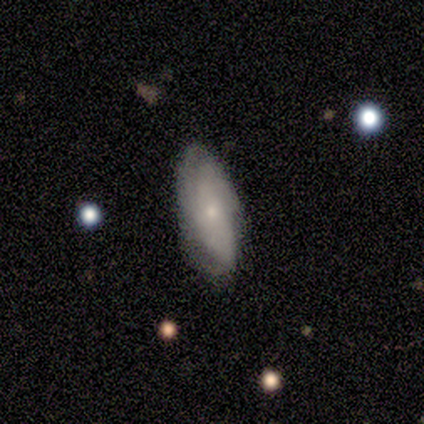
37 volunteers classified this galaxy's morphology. A featured or disk galaxy (54%) with no bar (75%), tight (78%) spiral arms (90%) and a small central bulge (85%).

Vote fractions:
- Smooth or featured? featured or disk: 54% / smooth: 38% / star or artifact: 8%
- Edge-on disk? no: 100% / yes: 0%
- Bar? no: 75% / weak: 15% / strong: 10%
- Spiral arms? yes: 90% / no: 10%
- Spiral winding? tight: 78% / medium: 22% / loose: 0%
- Spiral arm count? can't tell: 61% / 2: 17% / 3: 11% / 4: 6% / more than 4: 6% / 1: 0%
- Bulge size? small: 85% / moderate: 10% / none: 5% / dominant: 0% / large: 0%
- Merging? none: 74% / minor disturbance: 15% / major disturbance: 9% / merger: 3%